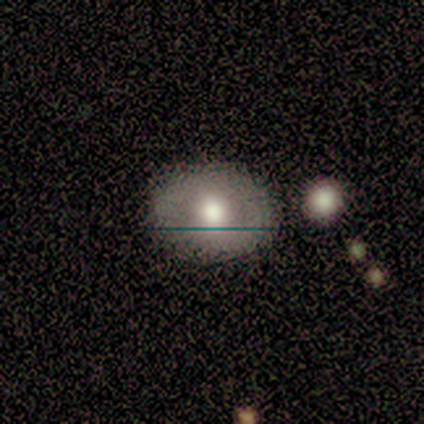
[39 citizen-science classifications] Smooth or featured?
  - smooth: 56% *
  - featured or disk: 28%
  - star or artifact: 15%
How rounded?
  - in between: 73% *
  - round: 27%
  - cigar-shaped: 0%
Merging?
  - none: 76% *
  - minor disturbance: 12%
  - merger: 9%
  - major disturbance: 3%